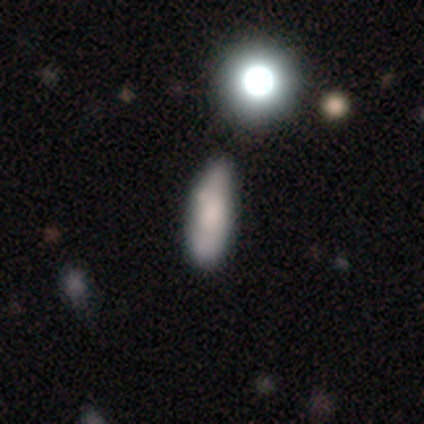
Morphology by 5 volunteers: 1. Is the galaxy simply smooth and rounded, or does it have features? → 80% smooth, 20% star or artifact, 0% featured or disk.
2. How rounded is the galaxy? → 75% in between, 25% cigar-shaped, 0% round.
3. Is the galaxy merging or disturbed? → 75% minor disturbance, 25% none, 0% major disturbance, 0% merger.